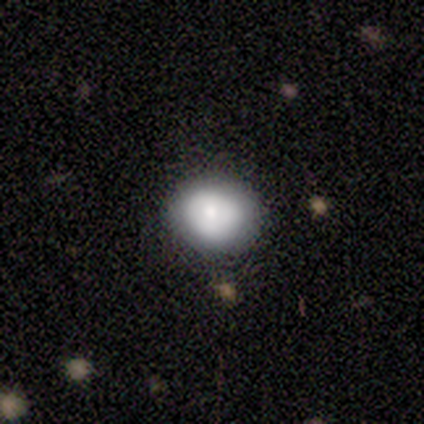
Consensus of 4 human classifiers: This is likely a smooth galaxy (75%). How rounded: clearly round (100%). Merging: possibly none (50%).